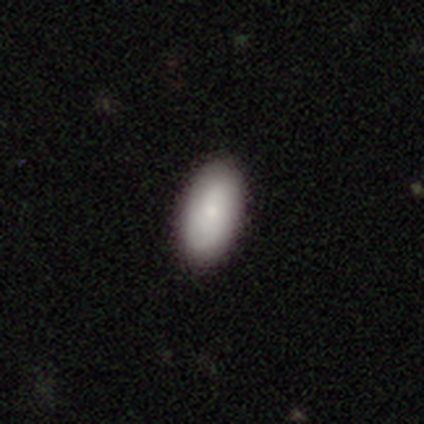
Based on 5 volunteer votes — Morphology: type=smooth (100%); roundness=in between (100%); merging=none (100%).